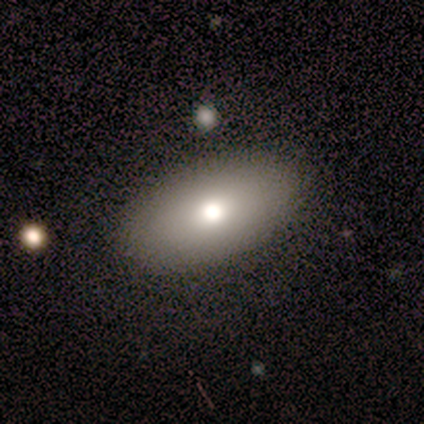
Q: Smooth or featured?
A: smooth (75%); runner-up: star or artifact (25%)
Q: How rounded?
A: in between (100%)
Q: Merging?
A: none (100%)